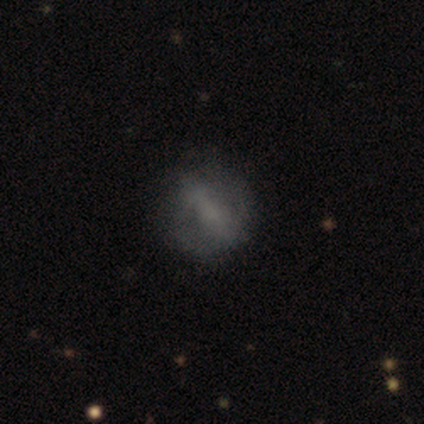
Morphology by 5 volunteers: Q: Smooth or featured?
A: featured or disk (80%); runner-up: star or artifact (20%)
Q: Edge-on disk?
A: no (100%)
Q: Bar?
A: strong (50%); runner-up: weak (25%)
Q: Spiral arms?
A: no (75%); runner-up: yes (25%)
Q: Bulge size?
A: none (50%); runner-up: moderate (25%)
Q: Merging?
A: none (75%); runner-up: minor disturbance (25%)